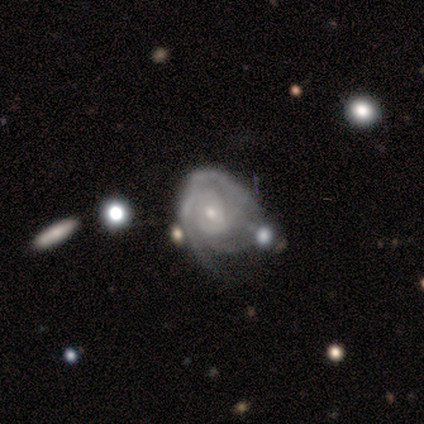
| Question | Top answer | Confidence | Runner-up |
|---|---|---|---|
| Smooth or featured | featured or disk | 75% | star or artifact (25%) |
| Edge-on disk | no | 100% | — |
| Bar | no | 67% | weak (33%) |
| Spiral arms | yes | 100% | — |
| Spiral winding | tight | 33% | tied: medium (33%), loose (33%) |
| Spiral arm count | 2 | 67% | can't tell (33%) |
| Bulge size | small | 67% | moderate (33%) |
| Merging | none | 33% | tied: major disturbance (33%), merger (33%) |